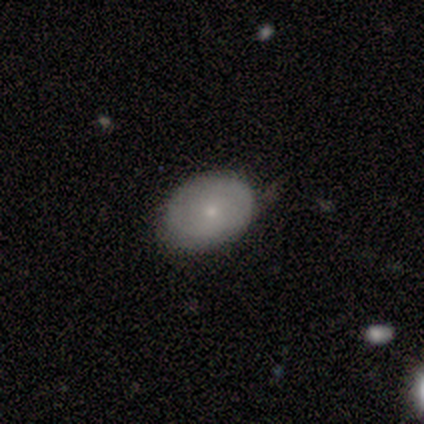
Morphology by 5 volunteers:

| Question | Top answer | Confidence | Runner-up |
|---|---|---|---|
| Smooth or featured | smooth | 80% | featured or disk (20%) |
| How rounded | in between | 75% | round (25%) |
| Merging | none | 60% | minor disturbance (40%) |